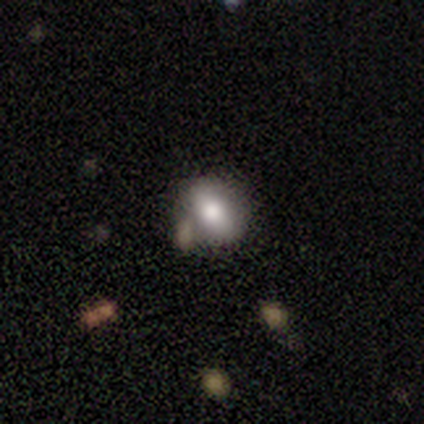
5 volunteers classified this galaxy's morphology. smooth 80%, featured or disk 20%, star or artifact 0%. Down the decision tree: how rounded — in between (100%); merging — minor disturbance (40%, tied with merger).